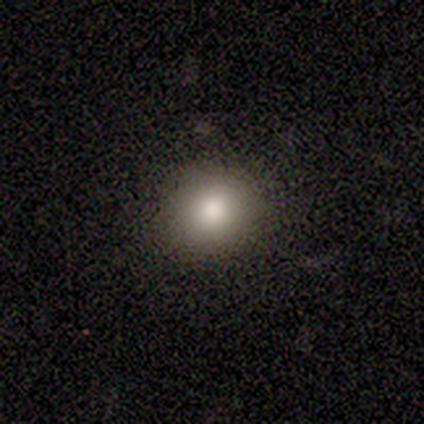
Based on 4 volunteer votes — Smooth or featured? smooth (100%)
How rounded? round (75%)
Merging? none (100%)